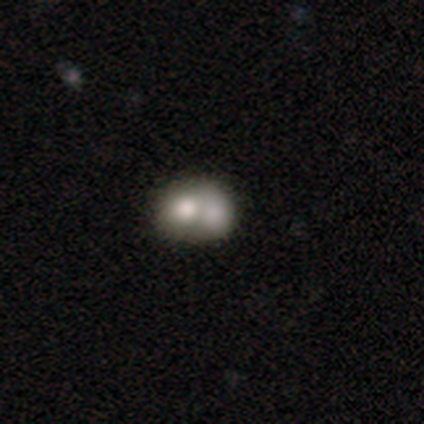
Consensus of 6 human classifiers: smooth 50%, featured or disk 33%, star or artifact 17%. Down the decision tree: how rounded — in between (67%); merging — merger (100%).